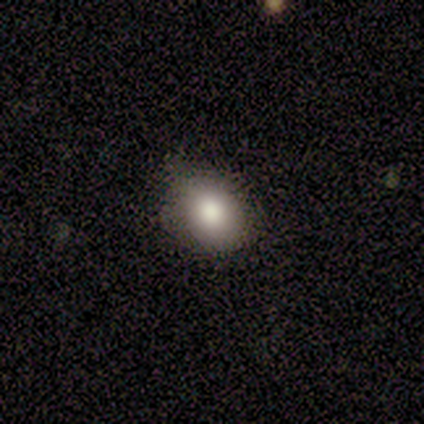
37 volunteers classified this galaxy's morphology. Smooth or featured? smooth (73%)
How rounded? in between (63%)
Merging? none (79%)